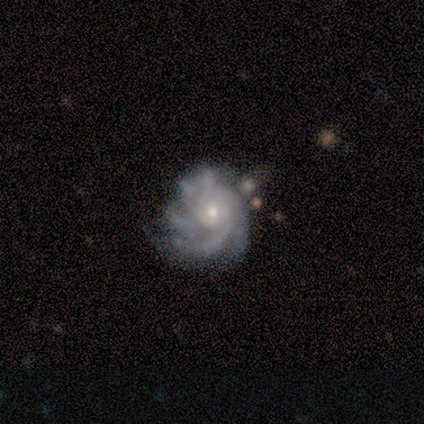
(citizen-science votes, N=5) A featured or disk galaxy (100%) with no bar (100%), more than 4 (60%) tight (80%) spiral arms (100%) and a small central bulge (80%). Merging: none (60%).